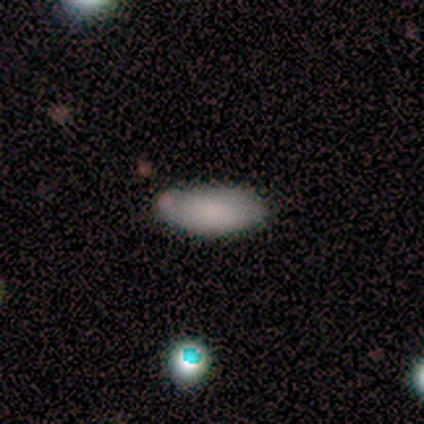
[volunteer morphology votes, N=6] smooth 83%, featured or disk 17%, star or artifact 0%. Down the decision tree: how rounded — in between (80%); merging — none (67%).